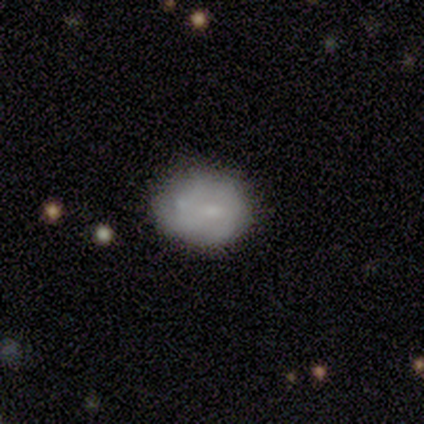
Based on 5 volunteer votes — Smooth or featured?
  - smooth: 80% *
  - featured or disk: 20%
  - star or artifact: 0%
How rounded?
  - round: 75% *
  - in between: 25%
  - cigar-shaped: 0%
Merging?
  - none: 40% * (tied)
  - minor disturbance: 40% * (tied)
  - merger: 20%
  - major disturbance: 0%